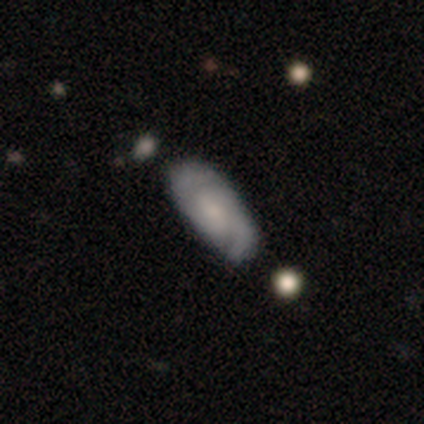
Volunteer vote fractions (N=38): smooth_or_featured: featured or disk (p=0.61) [alt: smooth p=0.39]
disk_edge_on: no (p=0.87) [alt: yes p=0.13]
bar: no (p=0.65) [alt: weak p=0.25]
has_spiral_arms: yes (p=0.90) [alt: no p=0.10]
spiral_winding: tight (p=0.44) [alt: loose p=0.39]
spiral_arm_count: 2 (p=0.78) [alt: can't tell p=0.17]
bulge_size: moderate (p=0.35) [tied with: none p=0.35]
merging: none (p=0.66) [alt: minor disturbance p=0.21]